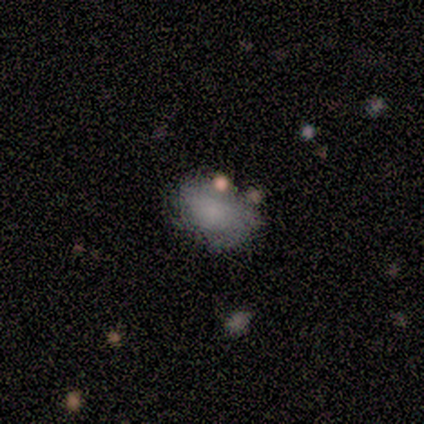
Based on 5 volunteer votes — Overall: smooth (60%; featured or disk 20%). How rounded: in between (67%; round 33%). Merging: minor disturbance (50%; none 25%).